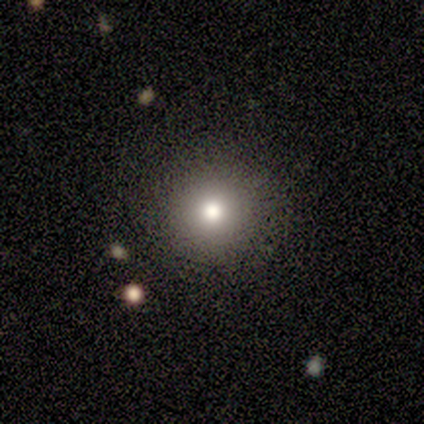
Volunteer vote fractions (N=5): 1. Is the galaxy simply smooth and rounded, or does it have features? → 60% smooth, 40% featured or disk, 0% star or artifact.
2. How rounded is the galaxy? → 100% round, 0% in between, 0% cigar-shaped.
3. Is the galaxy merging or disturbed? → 100% none, 0% minor disturbance, 0% major disturbance, 0% merger.